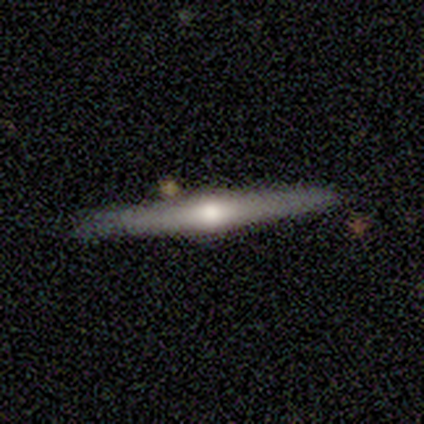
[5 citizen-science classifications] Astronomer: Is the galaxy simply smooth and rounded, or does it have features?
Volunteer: featured or disk — 100%.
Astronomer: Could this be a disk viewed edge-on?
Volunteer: yes — 100%.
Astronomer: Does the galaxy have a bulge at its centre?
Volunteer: rounded — 100%.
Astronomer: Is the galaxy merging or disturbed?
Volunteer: none — 100%.